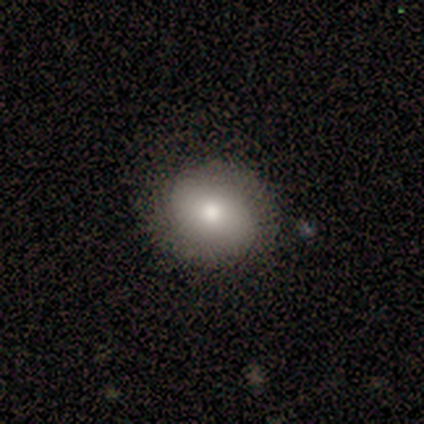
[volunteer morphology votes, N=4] Volunteers were most divided on "how rounded" (2-way tie): round: 50%, in between: 50%, cigar-shaped: 0%. More confident: merging — none (67%); smooth or featured — smooth (50%).